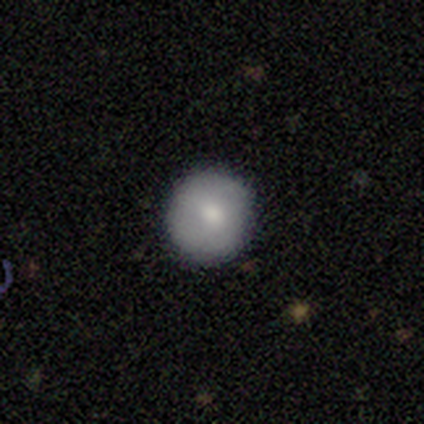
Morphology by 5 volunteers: Smooth or featured: smooth — 100%
How rounded: round — 100%
Merging: none — 100%